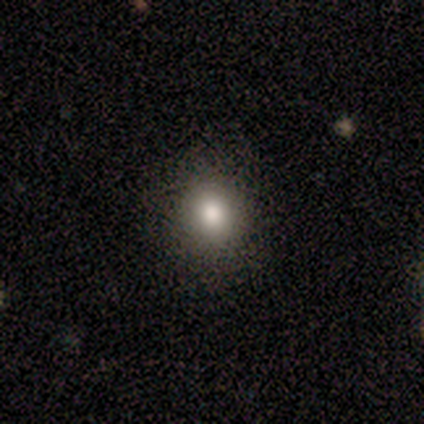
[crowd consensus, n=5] Overall: smooth (80%). How rounded: round (100%). Merging: none (100%).